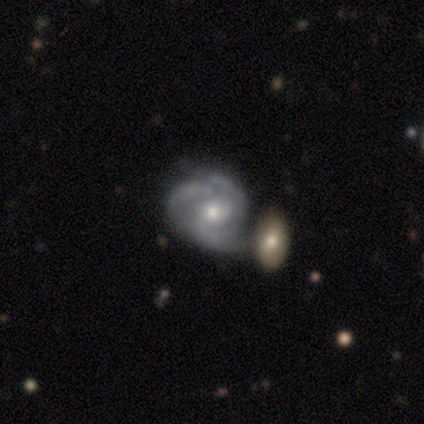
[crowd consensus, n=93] Q: Smooth or featured?
A: featured or disk (92%); runner-up: smooth (5%)
Q: Edge-on disk?
A: no (99%); runner-up: yes (1%)
Q: Bar?
A: no (65%); runner-up: weak (27%)
Q: Spiral arms?
A: yes (99%); runner-up: no (1%)
Q: Spiral winding?
A: tight (62%); runner-up: medium (32%)
Q: Spiral arm count?
A: 3 (69%); runner-up: 2 (14%)
Q: Bulge size?
A: moderate (61%); runner-up: small (36%)
Q: Merging?
A: none (44%); runner-up: merger (32%)